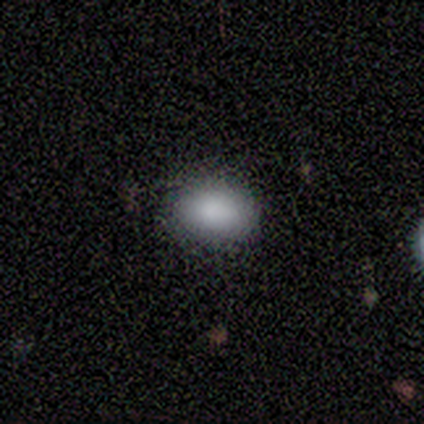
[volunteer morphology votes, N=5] Volunteers were most divided on "smooth or featured": smooth: 60%, star or artifact: 40%, featured or disk: 0%. More confident: how rounded — in between (100%); merging — none (100%).